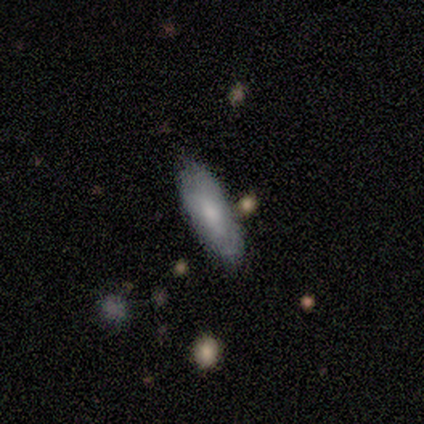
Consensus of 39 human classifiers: Smooth or featured?
  - smooth: 69% *
  - featured or disk: 26%
  - star or artifact: 5%
How rounded?
  - in between: 85% *
  - cigar-shaped: 11%
  - round: 4%
Merging?
  - none: 81% *
  - minor disturbance: 19%
  - major disturbance: 0%
  - merger: 0%